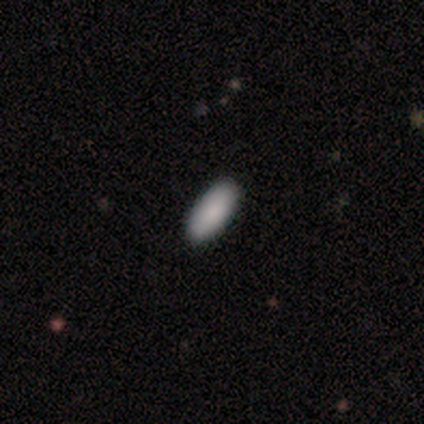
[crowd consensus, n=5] A smooth galaxy with no disk features (100%) that is in between round and cigar-shaped (60%). Merging: none (100%).